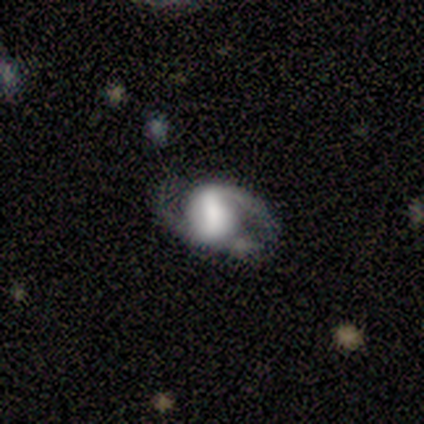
smooth-or-featured: featured or disk: 100% | smooth: 0% | star or artifact: 0%
  disk-edge-on: no: 100% | yes: 0%
    bar: strong: 60% | weak: 40% | no: 0%
    has-spiral-arms: yes: 100% | no: 0%
      spiral-winding: medium: 80% | tight: 20% | loose: 0%
      spiral-arm-count: 2: 80% | 1: 20% | 3: 0% | 4: 0% | more than 4: 0% | can't tell: 0%
    bulge-size: large: 80% | dominant: 20% | moderate: 0% | small: 0% | none: 0%
  merging: none: 40% (tied) | minor disturbance: 40% (tied) | major disturbance: 20% | merger: 0%